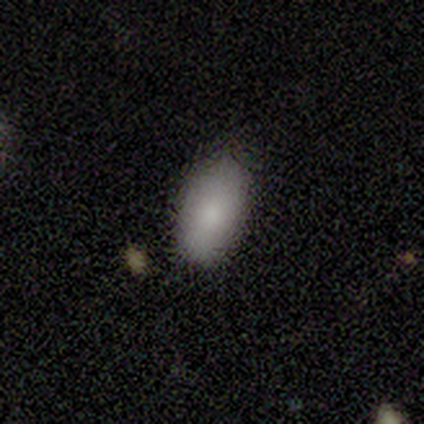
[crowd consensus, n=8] smooth_or_featured: smooth (p=1.00)
how_rounded: in between (p=0.88) [alt: round p=0.12]
merging: none (p=0.75) [alt: minor disturbance p=0.25]